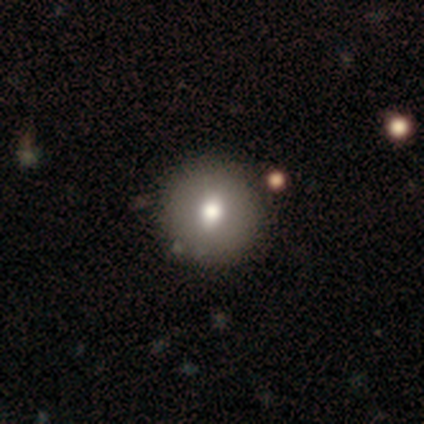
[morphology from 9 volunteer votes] Smooth or featured? smooth (100%)
How rounded? round (100%)
Merging? none (100%)